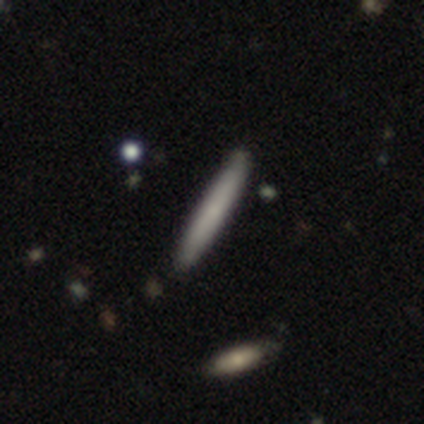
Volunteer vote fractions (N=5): Smooth or featured? smooth (80%)
How rounded? cigar-shaped (100%)
Merging? none (80%)